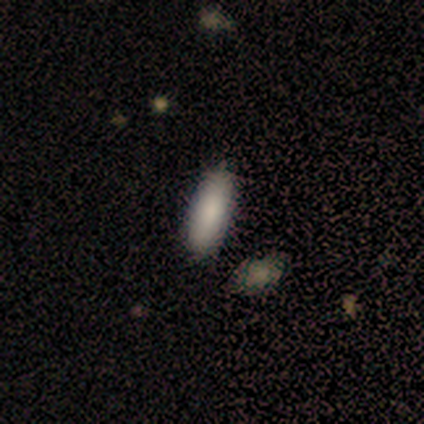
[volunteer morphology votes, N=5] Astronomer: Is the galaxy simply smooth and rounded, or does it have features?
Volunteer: smooth — 100%.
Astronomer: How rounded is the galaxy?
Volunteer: in between — 100%.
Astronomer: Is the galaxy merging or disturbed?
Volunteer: none — 80%.